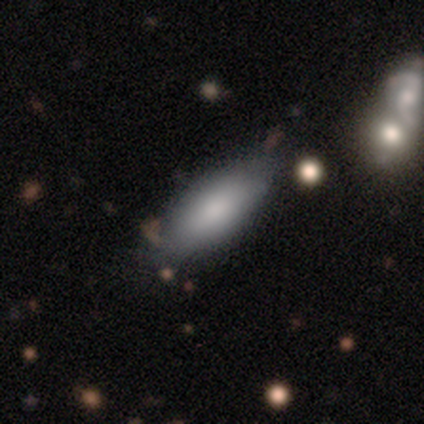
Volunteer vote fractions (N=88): smooth 86%, featured or disk 10%, star or artifact 3%. Down the decision tree: how rounded — in between (76%); merging — none (67%).